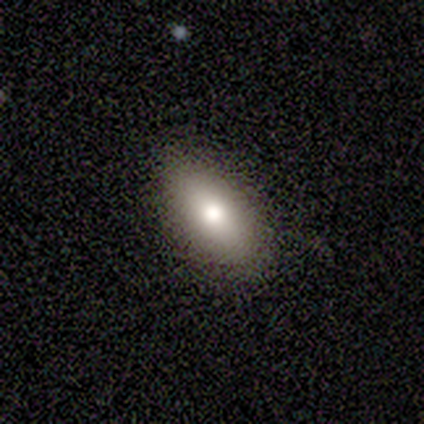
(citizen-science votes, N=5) smooth-or-featured: smooth: 80% | star or artifact: 20% | featured or disk: 0%
  how-rounded: round: 50% (tied) | cigar-shaped: 50% (tied) | in between: 0%
  merging: none: 75% | minor disturbance: 25% | major disturbance: 0% | merger: 0%